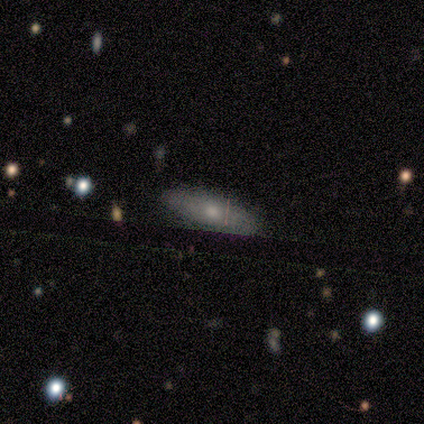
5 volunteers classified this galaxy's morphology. Volunteers were most divided on "smooth or featured": smooth: 60%, featured or disk: 40%, star or artifact: 0%. More confident: merging — none (80%); how rounded — in between (67%).